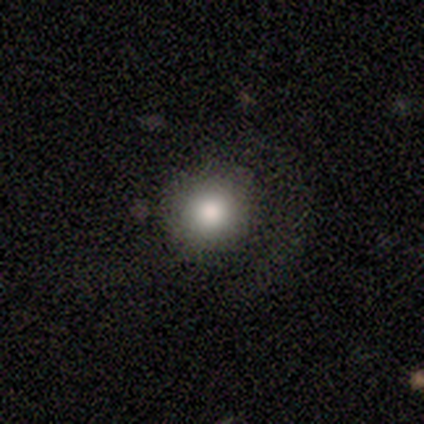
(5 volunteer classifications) Smooth or featured? smooth (80%)
How rounded? round (100%)
Merging? none (80%)